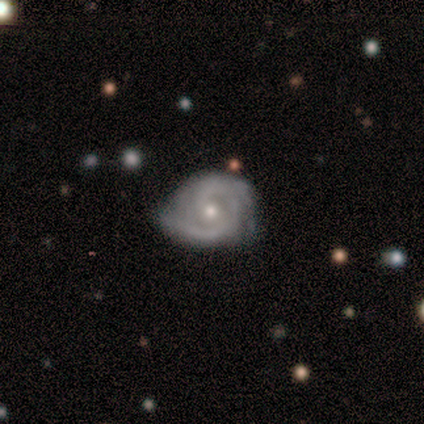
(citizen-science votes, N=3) Morphology: type=featured or disk (100%); edge-on=no (100%); bar=no (100%); spiral arms=yes (100%); winding=tight (67%); arm count=2 (67%); bulge=small (67%); merging=none (67%).